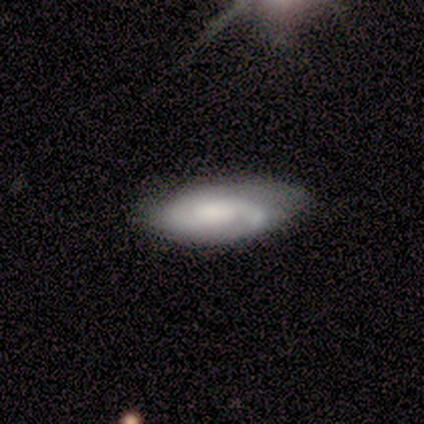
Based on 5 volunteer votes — Morphology: type=featured or disk (60%); edge-on=no (100%); bar=no (100%); spiral arms=yes (100%); winding=medium (67%); arm count=2 (100%); bulge=small (100%); merging=none (80%).